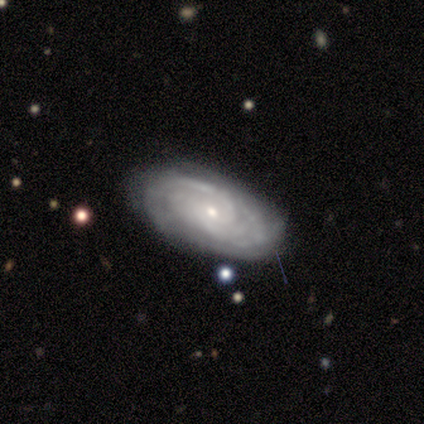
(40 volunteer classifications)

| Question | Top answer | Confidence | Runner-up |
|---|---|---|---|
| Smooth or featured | featured or disk | 90% | smooth (8%) |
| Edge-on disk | no | 94% | yes (6%) |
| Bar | no | 79% | weak (15%) |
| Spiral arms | yes | 97% | no (3%) |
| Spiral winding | tight | 67% | medium (27%) |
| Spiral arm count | can't tell | 45% | 2 (33%) |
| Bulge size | small | 79% | moderate (15%) |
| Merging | none | 79% | minor disturbance (15%) |